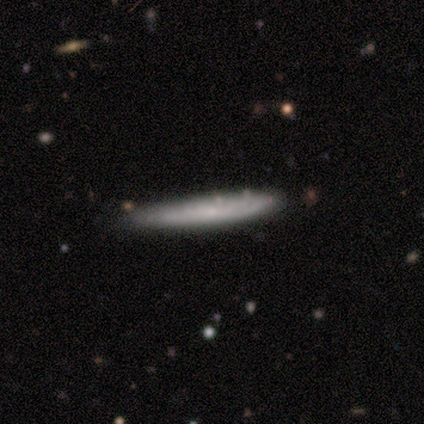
smooth_or_featured: smooth (p=0.80) [alt: featured or disk p=0.20]
how_rounded: cigar-shaped (p=1.00)
merging: none (p=0.60) [alt: minor disturbance p=0.20]